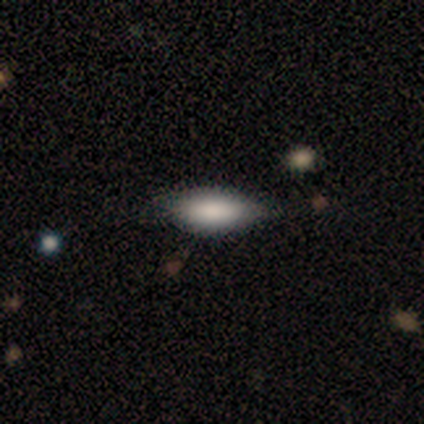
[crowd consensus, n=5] Smooth or featured?
  - smooth: 80% *
  - star or artifact: 20%
  - featured or disk: 0%
How rounded?
  - in between: 100% *
  - round: 0%
  - cigar-shaped: 0%
Merging?
  - none: 75% *
  - major disturbance: 25%
  - minor disturbance: 0%
  - merger: 0%